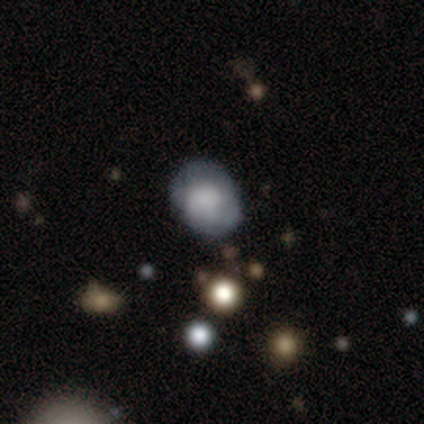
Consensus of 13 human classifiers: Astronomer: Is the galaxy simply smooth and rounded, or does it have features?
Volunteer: smooth — 77%.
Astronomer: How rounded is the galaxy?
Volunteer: round — 60% (runner-up: in between, 40%).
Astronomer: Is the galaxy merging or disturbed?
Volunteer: none — 85%.